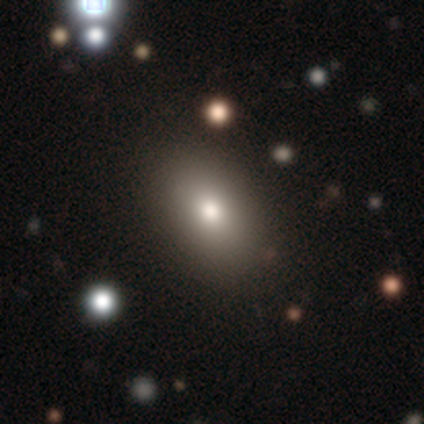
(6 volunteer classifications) Overall: smooth (67%). How rounded: in between (75%). Merging: none (100%).